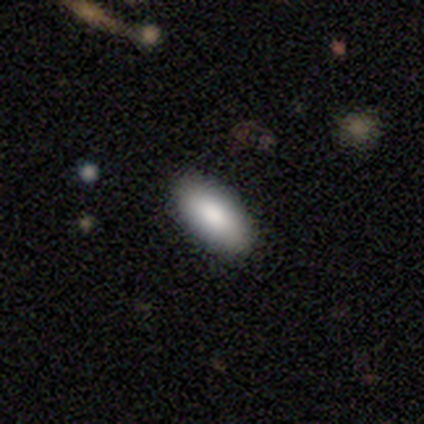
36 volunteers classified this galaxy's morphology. Q: Smooth or featured?
A: smooth (75%); runner-up: star or artifact (14%)
Q: How rounded?
A: in between (93%); runner-up: cigar-shaped (7%)
Q: Merging?
A: none (94%); runner-up: minor disturbance (6%)